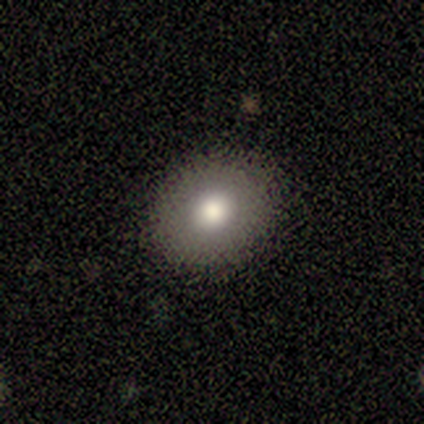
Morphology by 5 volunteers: This appears to be a smooth galaxy with no disk features (80%) that is round (100%). Merging: none (80%).